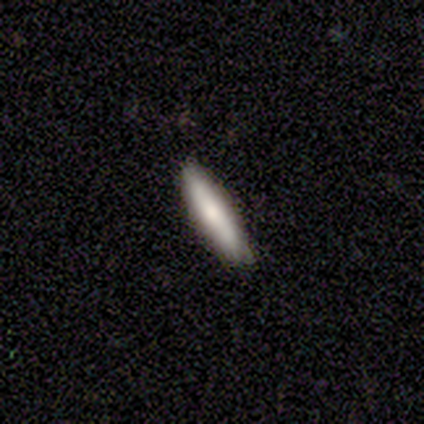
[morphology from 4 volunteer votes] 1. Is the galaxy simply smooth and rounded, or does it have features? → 75% smooth, 25% featured or disk, 0% star or artifact.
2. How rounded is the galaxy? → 100% cigar-shaped, 0% round, 0% in between.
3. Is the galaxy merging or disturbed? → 100% none, 0% minor disturbance, 0% major disturbance, 0% merger.